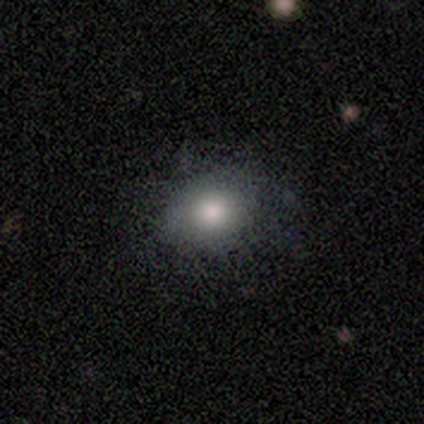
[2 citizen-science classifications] This is possibly a smooth galaxy (50%, tied with featured or disk). How rounded: clearly in between (100%). Merging: clearly none (100%).